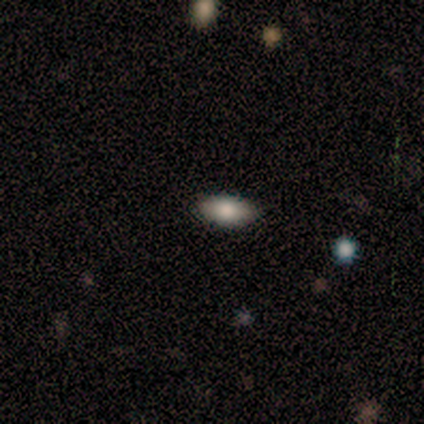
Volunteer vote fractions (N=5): A smooth galaxy with no disk features (100%) that is in between round and cigar-shaped (100%).

Vote fractions:
- Smooth or featured? smooth: 100% / featured or disk: 0% / star or artifact: 0%
- How rounded? in between: 100% / round: 0% / cigar-shaped: 0%
- Merging? none: 80% / minor disturbance: 20% / major disturbance: 0% / merger: 0%